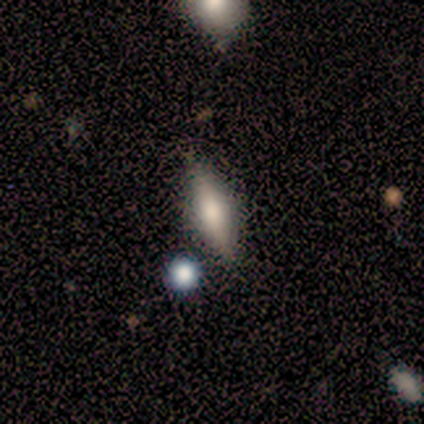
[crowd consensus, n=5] Smooth or featured?
  - smooth: 60% *
  - featured or disk: 40%
  - star or artifact: 0%
How rounded?
  - cigar-shaped: 67% *
  - in between: 33%
  - round: 0%
Merging?
  - none: 80% *
  - merger: 20%
  - minor disturbance: 0%
  - major disturbance: 0%